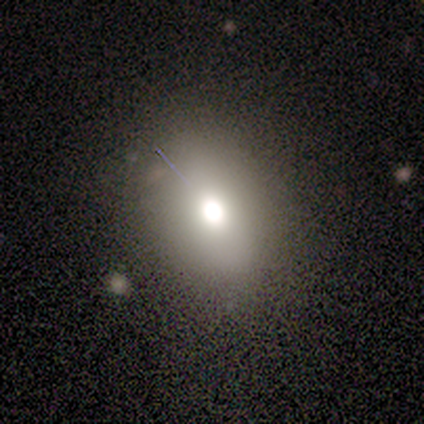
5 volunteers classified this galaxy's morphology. A smooth galaxy with no disk features (80%) that is round (50%, tied with in between). Merging: none (100%).